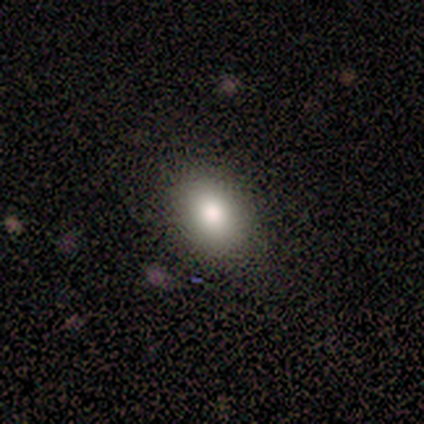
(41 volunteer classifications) Smooth or featured: smooth — 93% (featured or disk — 7%)
How rounded: in between — 82% (round — 18%)
Merging: none — 85% (minor disturbance — 12%)